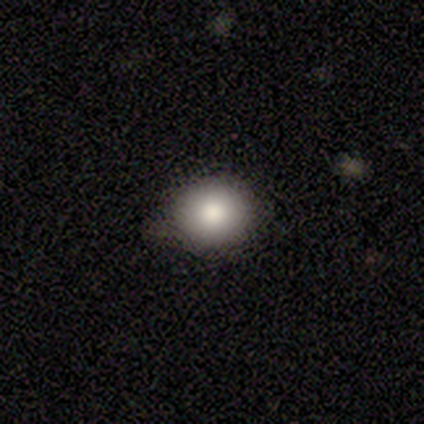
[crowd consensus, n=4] This is clearly a smooth galaxy (100%). How rounded: likely in between (75%). Merging: clearly none (100%).